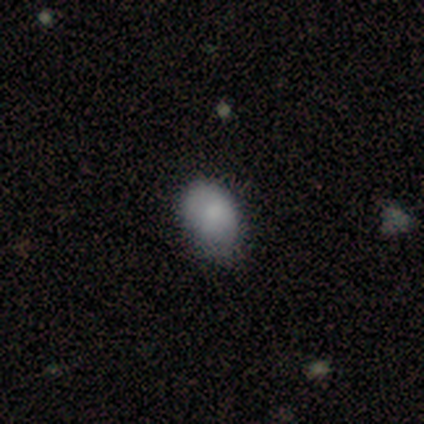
A smooth galaxy with no disk features (72%) that is in between round and cigar-shaped (86%).

Vote fractions:
- Smooth or featured? smooth: 72% / featured or disk: 18% / star or artifact: 10%
- How rounded? in between: 86% / round: 14% / cigar-shaped: 0%
- Merging? none: 60% / minor disturbance: 31% / major disturbance: 9% / merger: 0%